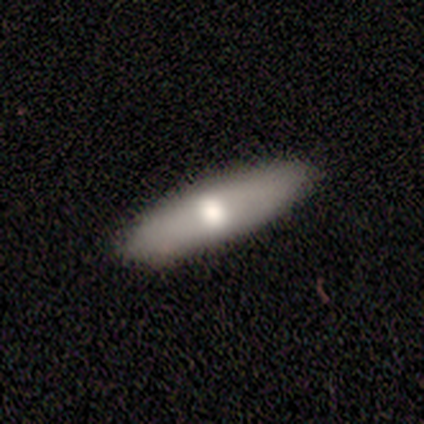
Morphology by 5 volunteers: A smooth galaxy with no disk features (80%) that is cigar-shaped (100%).

Vote fractions:
- Smooth or featured? smooth: 80% / featured or disk: 20% / star or artifact: 0%
- How rounded? cigar-shaped: 100% / round: 0% / in between: 0%
- Merging? none: 100% / minor disturbance: 0% / major disturbance: 0% / merger: 0%